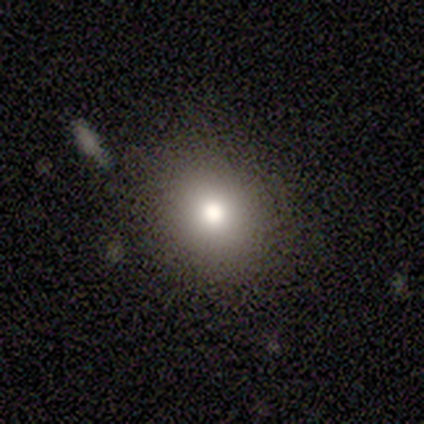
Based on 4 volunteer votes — smooth-or-featured: smooth: 75% | featured or disk: 25% | star or artifact: 0%
  how-rounded: round: 100% | in between: 0% | cigar-shaped: 0%
  merging: none: 100% | minor disturbance: 0% | major disturbance: 0% | merger: 0%